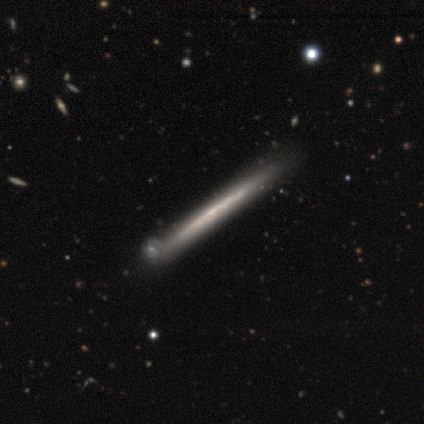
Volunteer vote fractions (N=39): Overall: featured or disk (72%). Edge-on disk: yes (93%). Edge-on bulge: none (96%). Merging: none (82%).